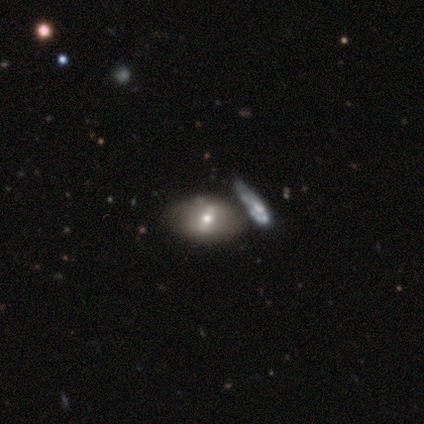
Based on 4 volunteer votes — A smooth galaxy with no disk features (50%, tied with featured or disk) that is in between round and cigar-shaped (100%).

Vote fractions:
- Smooth or featured? smooth: 50% (tied) / featured or disk: 50% (tied) / star or artifact: 0%
- How rounded? in between: 100% / round: 0% / cigar-shaped: 0%
- Merging? none: 75% / minor disturbance: 25% / major disturbance: 0% / merger: 0%